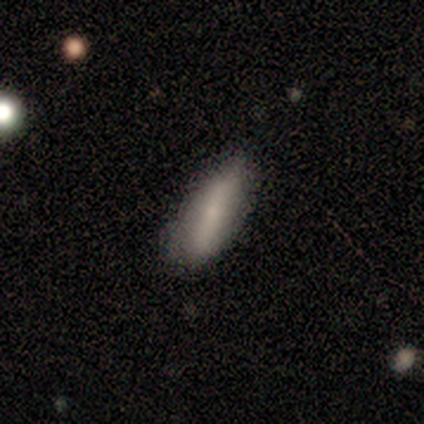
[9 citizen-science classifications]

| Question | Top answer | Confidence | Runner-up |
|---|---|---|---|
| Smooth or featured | smooth | 89% | featured or disk (11%) |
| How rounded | in between | 62% | cigar-shaped (38%) |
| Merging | none | 78% | minor disturbance (11%) |